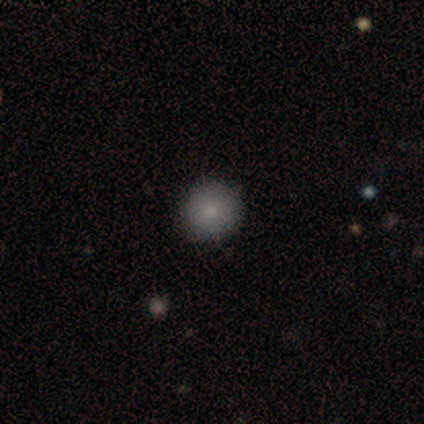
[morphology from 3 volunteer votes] A smooth galaxy with no disk features (100%) that is round (100%).

Vote fractions:
- Smooth or featured? smooth: 100% / featured or disk: 0% / star or artifact: 0%
- How rounded? round: 100% / in between: 0% / cigar-shaped: 0%
- Merging? none: 100% / minor disturbance: 0% / major disturbance: 0% / merger: 0%